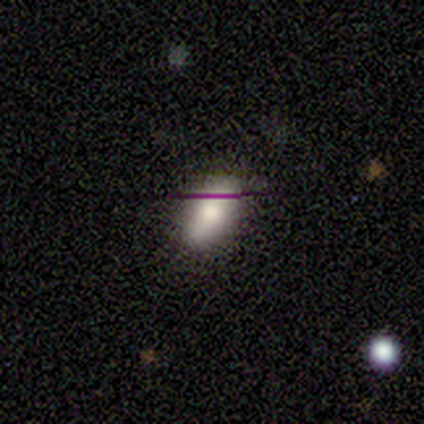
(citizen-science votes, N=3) Q: Smooth or featured?
A: smooth (67%); runner-up: star or artifact (33%)
Q: How rounded?
A: in between (100%)
Q: Merging?
A: none (100%)